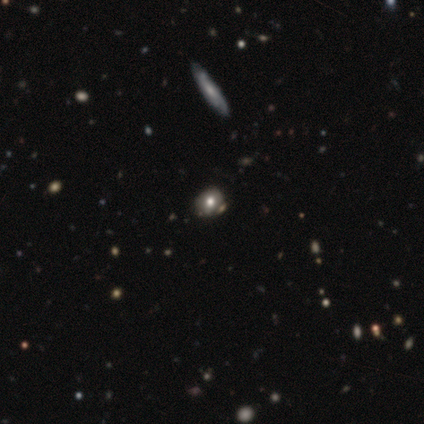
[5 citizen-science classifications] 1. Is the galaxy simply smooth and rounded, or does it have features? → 60% smooth, 40% star or artifact, 0% featured or disk.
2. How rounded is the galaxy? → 67% round, 33% in between, 0% cigar-shaped.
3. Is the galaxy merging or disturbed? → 67% none, 33% minor disturbance, 0% major disturbance, 0% merger.